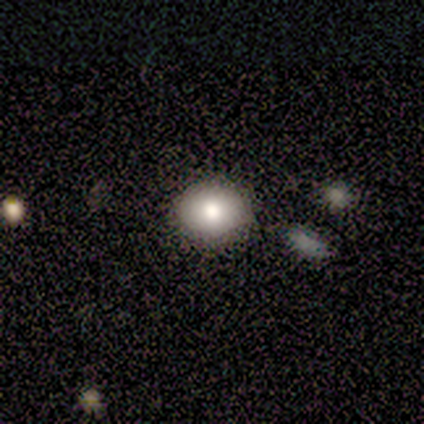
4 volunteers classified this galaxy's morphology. smooth-or-featured: smooth: 75% | featured or disk: 25% | star or artifact: 0%
  how-rounded: in between: 67% | round: 33% | cigar-shaped: 0%
  merging: none: 75% | merger: 25% | minor disturbance: 0% | major disturbance: 0%